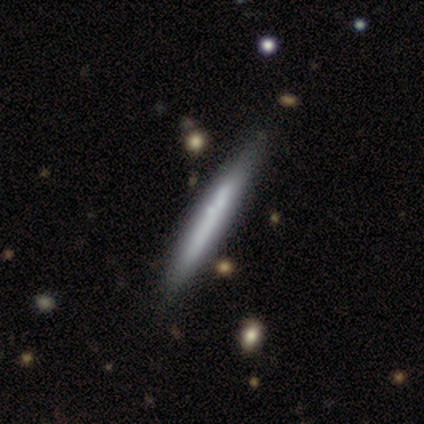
This appears to be a featured or disk galaxy (60%) viewed edge-on (67%) with no central bulge (50%, tied with rounded). Merging: none (80%).